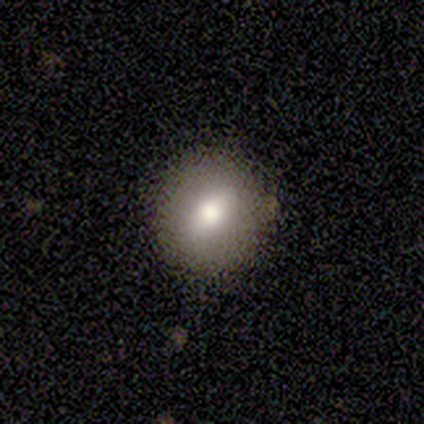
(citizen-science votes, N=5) Smooth or featured: smooth — 80% (featured or disk — 20%)
How rounded: round — 100%
Merging: none — 100%